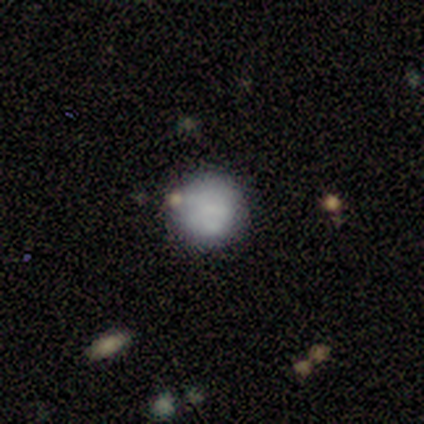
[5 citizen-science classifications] smooth_or_featured: smooth (p=1.00)
how_rounded: round (p=1.00)
merging: none (p=1.00)